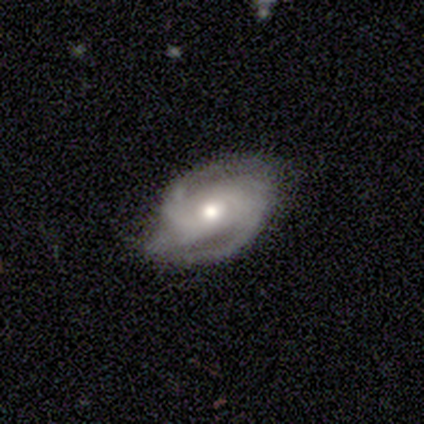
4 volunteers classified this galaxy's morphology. Smooth or featured: featured or disk — 100%
Edge-on disk: no — 100%
Bar: no — 100%
Spiral arms: yes — 100%
Spiral winding: loose — 50% (tight — 25%)
Spiral arm count: 2 — 75% (can't tell — 25%)
Bulge size: moderate — 50% (tied with small — 50%)
Merging: none — 100%